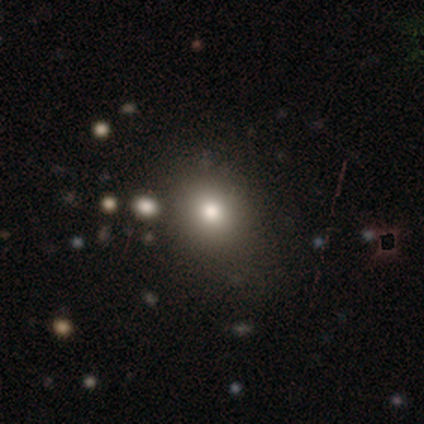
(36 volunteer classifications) smooth_or_featured: smooth (p=0.67) [alt: star or artifact p=0.19]
how_rounded: round (p=0.67) [alt: in between p=0.33]
merging: none (p=0.62) [alt: minor disturbance p=0.21]